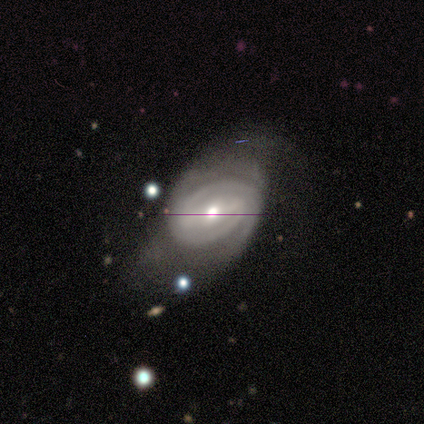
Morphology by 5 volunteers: Smooth or featured? 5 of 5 (100%) said featured or disk. Edge-on disk? 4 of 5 (80%) said no. Bar? 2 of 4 (50%) said weak. Spiral arms? 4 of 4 (100%) said yes. Spiral winding? 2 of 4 (50%) said tight. Spiral arm count? 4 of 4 (100%) said 2. Bulge size? 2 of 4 (50%, tied with small) said moderate. Merging? 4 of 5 (80%) said none.